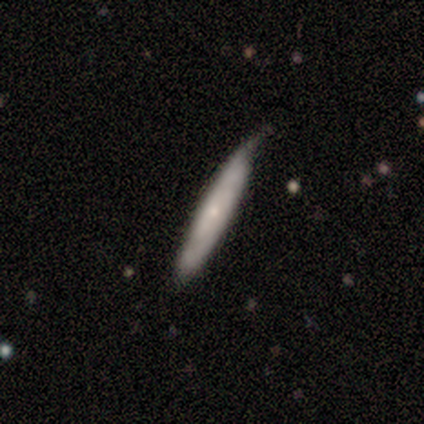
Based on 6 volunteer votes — This is likely a smooth galaxy (67%). How rounded: clearly cigar-shaped (100%). Merging: possibly none (50%, tied with minor disturbance).